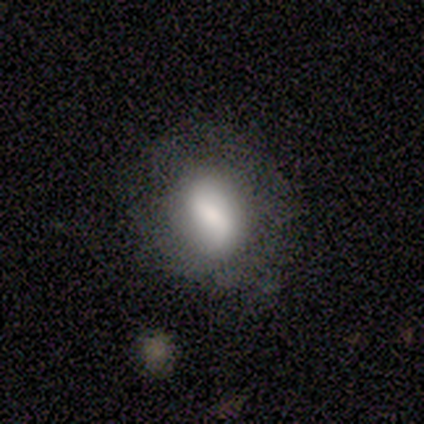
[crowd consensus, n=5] Volunteers were most divided on "bulge size": moderate: 50%, large: 25%, small: 25%, dominant: 0%, none: 0%. More confident: edge-on disk — no (100%); spiral arm count — 2 (100%); smooth or featured — featured or disk (80%); merging — none (80%); bar — weak (75%); spiral arms — yes (75%); spiral winding — loose (67%).